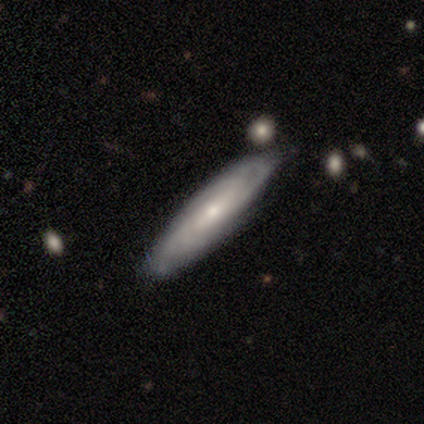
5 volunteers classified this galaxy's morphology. Smooth or featured: featured or disk — 60% (smooth — 40%)
Edge-on disk: no — 67% (yes — 33%)
Bar: strong — 50% (tied with no — 50%)
Spiral arms: yes — 100%
Spiral winding: tight — 100%
Spiral arm count: 4 — 50% (tied with can't tell — 50%)
Bulge size: small — 50% (tied with none — 50%)
Merging: none — 100%